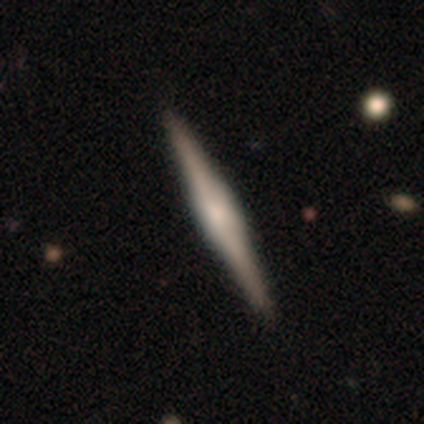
smooth-or-featured: featured or disk: 78% | smooth: 22% | star or artifact: 0%
  disk-edge-on: yes: 100% | no: 0%
    edge-on-bulge: boxy: 55% | rounded: 32% | none: 13%
  merging: none: 55% | major disturbance: 2% | merger: 2% | minor disturbance: 0%